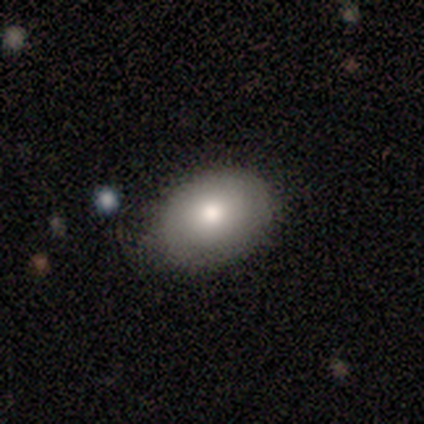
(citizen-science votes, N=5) smooth_or_featured: smooth (p=0.60) [alt: featured or disk p=0.40]
how_rounded: in between (p=1.00)
merging: none (p=0.80) [alt: major disturbance p=0.20]